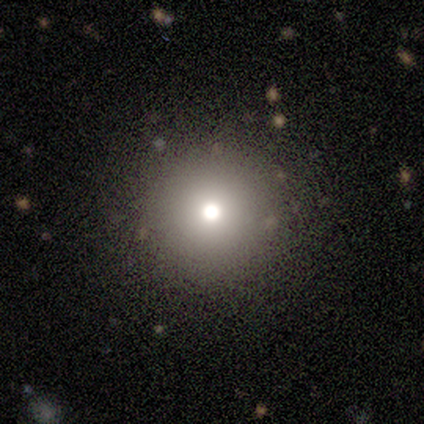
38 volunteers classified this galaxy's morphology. Smooth or featured?
  - smooth: 82% *
  - star or artifact: 16%
  - featured or disk: 3%
How rounded?
  - round: 100% *
  - in between: 0%
  - cigar-shaped: 0%
Merging?
  - none: 81% *
  - minor disturbance: 16%
  - merger: 3%
  - major disturbance: 0%